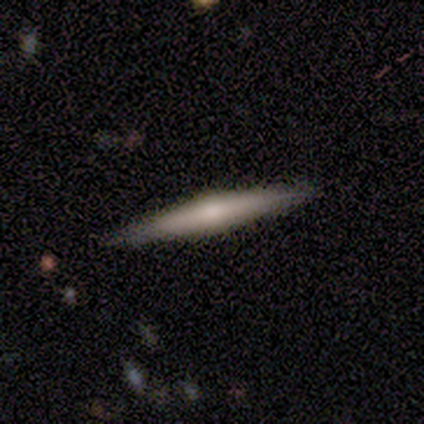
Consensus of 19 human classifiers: Morphology: type=featured or disk (58%); edge-on=yes (100%); edge-on bulge=rounded (91%); merging=none (95%).